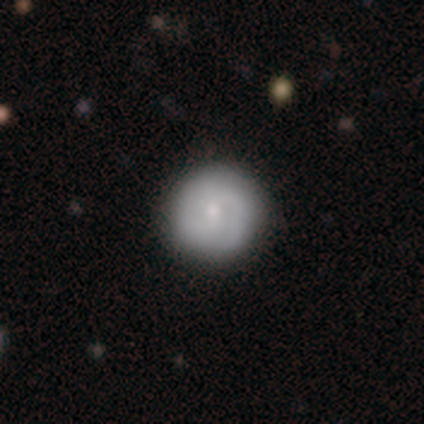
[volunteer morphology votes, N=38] Q: Smooth or featured?
A: featured or disk (58%); runner-up: smooth (34%)
Q: Edge-on disk?
A: no (100%)
Q: Bar?
A: no (68%); runner-up: weak (27%)
Q: Spiral arms?
A: yes (86%); runner-up: no (14%)
Q: Spiral winding?
A: tight (63%); runner-up: medium (32%)
Q: Spiral arm count?
A: 2 (74%); runner-up: can't tell (21%)
Q: Bulge size?
A: small (45%); runner-up: moderate (36%)
Q: Merging?
A: none (63%); runner-up: minor disturbance (6%)